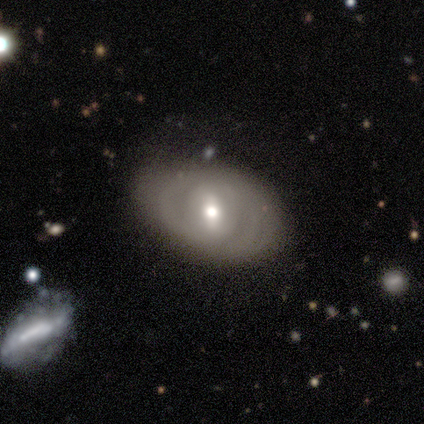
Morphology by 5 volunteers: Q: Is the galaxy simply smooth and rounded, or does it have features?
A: featured or disk — 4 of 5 (80%).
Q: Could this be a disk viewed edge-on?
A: no — 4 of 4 (100%).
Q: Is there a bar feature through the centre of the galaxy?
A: weak — 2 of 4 (50%).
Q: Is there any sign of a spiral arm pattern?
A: yes — 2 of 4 (50%, tied with no).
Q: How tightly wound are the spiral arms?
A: tight — 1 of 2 (50%, tied with medium).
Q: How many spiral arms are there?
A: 2 — 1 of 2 (50%, tied with can't tell).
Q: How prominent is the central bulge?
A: moderate — 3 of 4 (75%).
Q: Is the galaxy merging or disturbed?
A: none — 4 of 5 (80%).